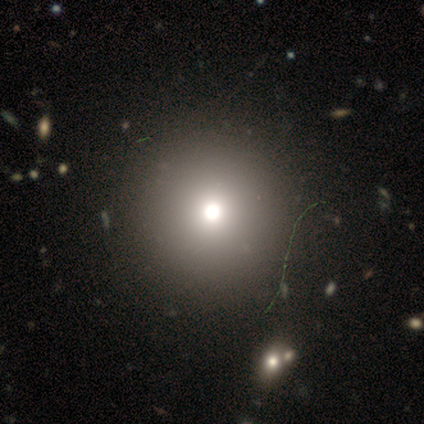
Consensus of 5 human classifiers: A smooth galaxy with no disk features (80%) that is round (100%). Merging: none (75%).